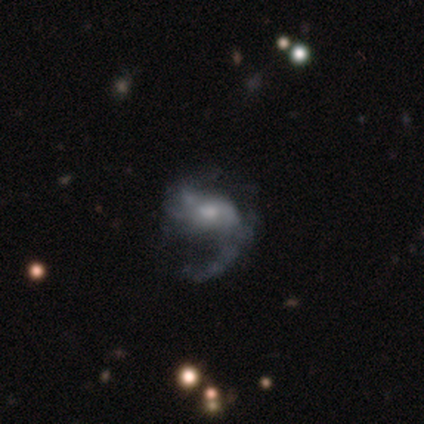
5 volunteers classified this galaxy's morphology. Smooth or featured? 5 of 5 (100%) said featured or disk. Edge-on disk? 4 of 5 (80%) said no. Bar? 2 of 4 (50%, tied with no) said weak. Spiral arms? 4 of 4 (100%) said yes. Spiral winding? 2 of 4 (50%, tied with loose) said medium. Spiral arm count? 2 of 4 (50%, tied with 2) said 1. Bulge size? 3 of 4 (75%) said moderate. Merging? 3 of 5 (60%) said none.